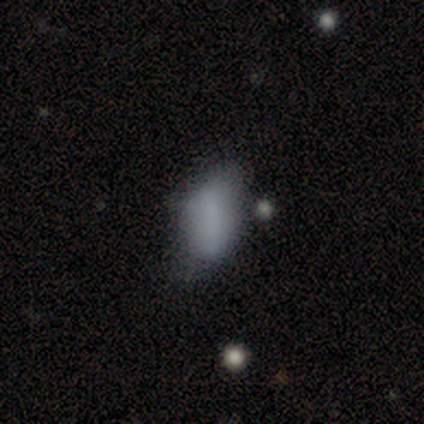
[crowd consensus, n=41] This is likely a smooth galaxy (73%). How rounded: clearly in between (93%). Merging: possibly none (47%).